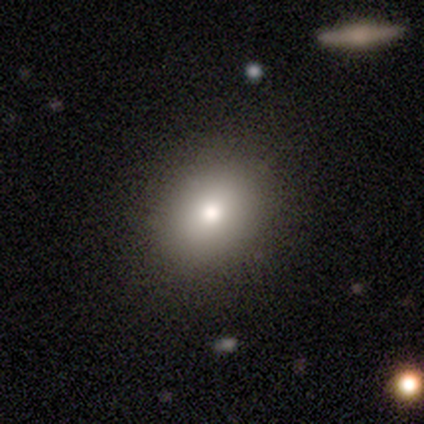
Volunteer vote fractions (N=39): smooth-or-featured: smooth: 69% | featured or disk: 21% | star or artifact: 10%
  how-rounded: round: 56% | in between: 44% | cigar-shaped: 0%
  merging: none: 86% | minor disturbance: 9% | merger: 6% | major disturbance: 0%